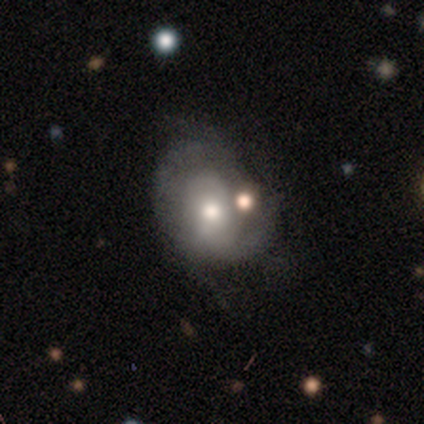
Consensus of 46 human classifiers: This is possibly a featured or disk galaxy (52%). It is clearly not viewed edge-on (96%). Bar: likely no (74%). Spiral arm pattern: likely yes (65%). Spiral arm count: marginally 2 (40%). Spiral winding: likely tight (60%). Central bulge: likely moderate (74%). Merging: marginally none (40%).